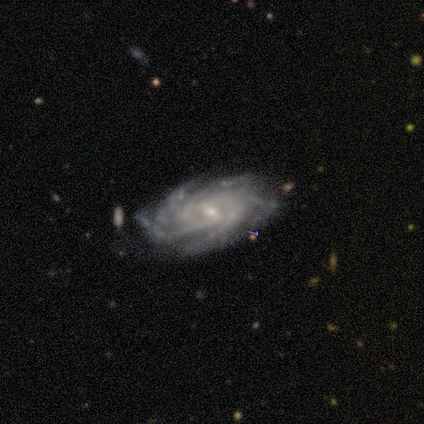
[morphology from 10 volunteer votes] This is clearly a featured or disk galaxy (90%). It is clearly not viewed edge-on (89%). Bar: possibly weak (50%). Spiral arm pattern: clearly yes (100%). Spiral arm count: marginally more than 4 (38%). Spiral winding: likely tight (62%). Central bulge: clearly small (88%). Merging: possibly none (56%).